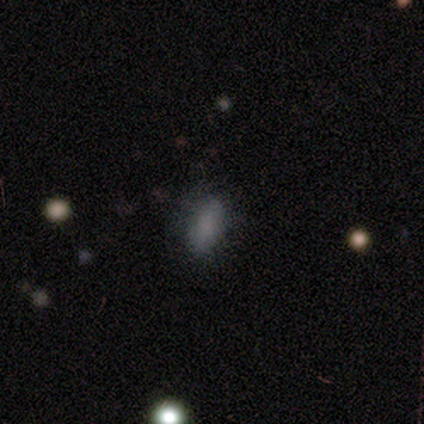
Smooth or featured?
  - smooth: 75% *
  - featured or disk: 25%
  - star or artifact: 0%
How rounded?
  - in between: 100% *
  - round: 0%
  - cigar-shaped: 0%
Merging?
  - none: 50% *
  - minor disturbance: 25%
  - major disturbance: 25%
  - merger: 0%